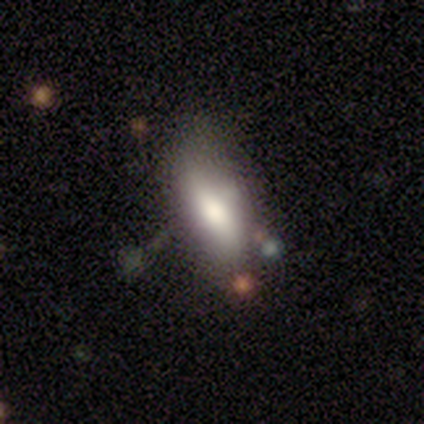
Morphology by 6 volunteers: Volunteers were most divided on "smooth or featured": smooth: 50%, star or artifact: 33%, featured or disk: 17%. More confident: merging — none (75%); how rounded — in between (67%).